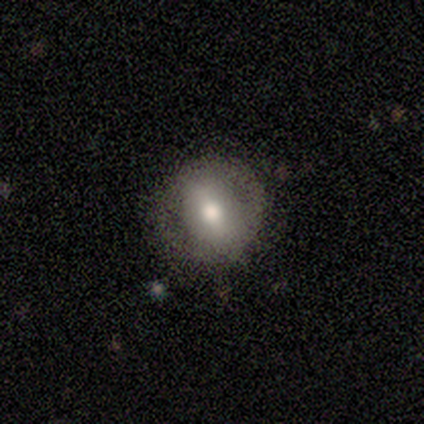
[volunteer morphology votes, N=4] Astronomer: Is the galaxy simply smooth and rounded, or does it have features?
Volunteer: smooth — 50%, tied with featured or disk at 50%.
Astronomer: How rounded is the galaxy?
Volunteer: round — 100%.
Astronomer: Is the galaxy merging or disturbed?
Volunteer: none — 100%.